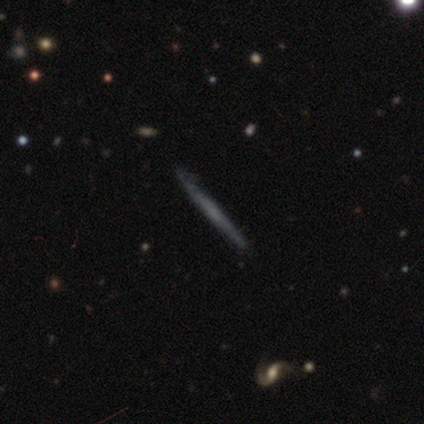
Volunteers were most divided on "smooth or featured": featured or disk: 60%, smooth: 40%, star or artifact: 0%. More confident: edge-on bulge — none (100%); merging — none (80%); edge-on disk — yes (67%).